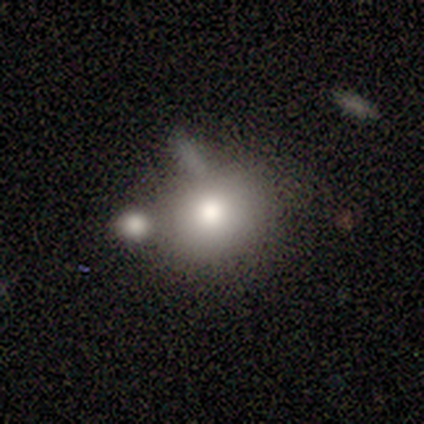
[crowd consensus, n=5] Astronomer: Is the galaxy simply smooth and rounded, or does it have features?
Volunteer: smooth — 100%.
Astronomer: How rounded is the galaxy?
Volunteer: round — 80%.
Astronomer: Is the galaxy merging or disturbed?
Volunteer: none — 60%.